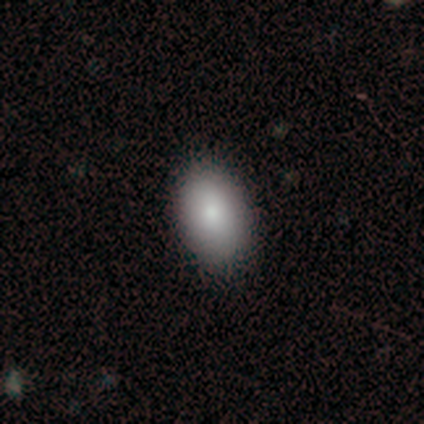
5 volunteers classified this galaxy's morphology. smooth-or-featured: smooth: 100% | featured or disk: 0% | star or artifact: 0%
  how-rounded: in between: 60% | round: 40% | cigar-shaped: 0%
  merging: none: 100% | minor disturbance: 0% | major disturbance: 0% | merger: 0%